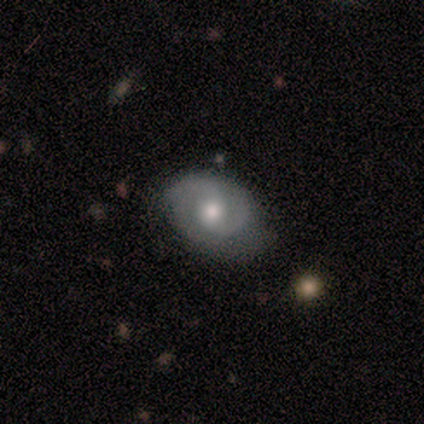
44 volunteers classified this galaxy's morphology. featured or disk 80%, smooth 14%, star or artifact 7%. Down the decision tree: edge-on disk — no (94%); bar — no (73%); spiral arms — yes (88%); spiral arm count — 2 (90%); spiral winding — tight (59%); bulge size — moderate (64%); merging — none (59%).